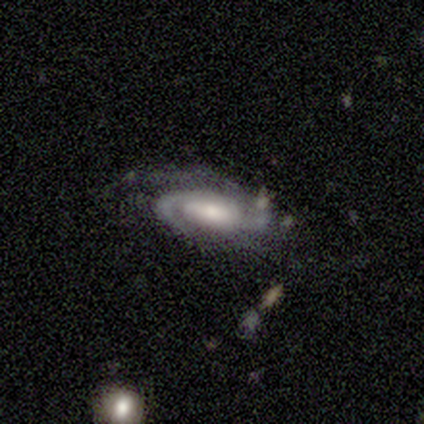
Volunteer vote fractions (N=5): smooth_or_featured: featured or disk (p=0.60) [alt: star or artifact p=0.40]
disk_edge_on: no (p=1.00)
bar: strong (p=0.67) [alt: weak p=0.33]
has_spiral_arms: yes (p=1.00)
spiral_winding: medium (p=0.67) [alt: tight p=0.33]
spiral_arm_count: 2 (p=1.00)
bulge_size: moderate (p=1.00)
merging: none (p=0.67) [alt: minor disturbance p=0.33]